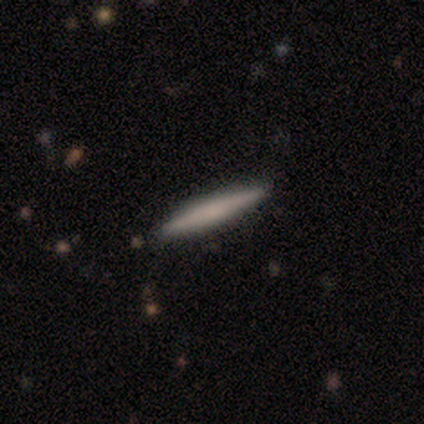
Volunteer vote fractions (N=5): smooth_or_featured: smooth (p=0.40) [tied with: featured or disk p=0.40]
how_rounded: cigar-shaped (p=1.00)
merging: none (p=1.00)